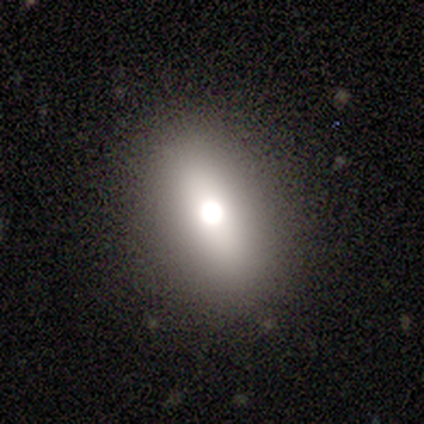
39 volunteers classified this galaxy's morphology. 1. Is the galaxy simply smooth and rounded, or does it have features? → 67% smooth, 23% featured or disk, 10% star or artifact.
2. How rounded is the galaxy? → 69% in between, 19% cigar-shaped, 12% round.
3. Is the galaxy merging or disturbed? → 80% none, 14% minor disturbance, 6% major disturbance, 0% merger.